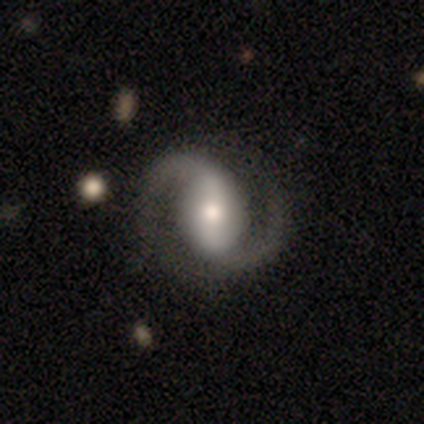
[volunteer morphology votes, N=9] Smooth or featured: featured or disk — 89% (star or artifact — 11%)
Edge-on disk: no — 88% (yes — 12%)
Bar: strong — 57% (weak — 29%)
Spiral arms: yes — 100%
Spiral winding: medium — 86% (loose — 14%)
Spiral arm count: 2 — 100%
Bulge size: moderate — 71% (small — 29%)
Merging: none — 88% (major disturbance — 12%)